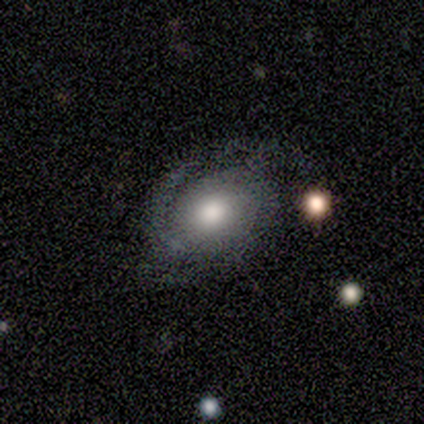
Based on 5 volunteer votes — featured or disk 60%, smooth 20%, star or artifact 20%. Down the decision tree: edge-on disk — no (100%); bar — weak (67%); spiral arms — yes (100%); spiral arm count — 1 (33%, tied with 2 and 3); spiral winding — tight (67%); bulge size — large (67%); merging — major disturbance (50%).